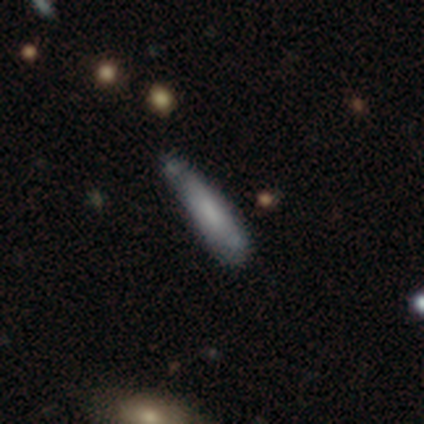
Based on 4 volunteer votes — Morphology: type=smooth (100%); roundness=cigar-shaped (75%); merging=none (75%).